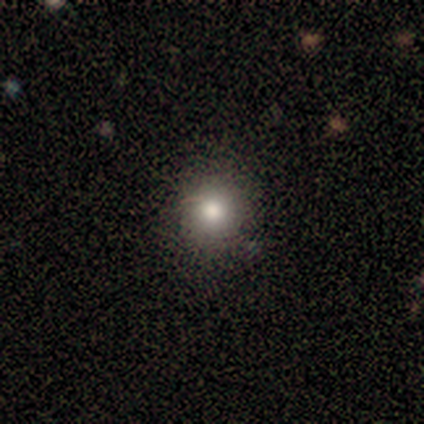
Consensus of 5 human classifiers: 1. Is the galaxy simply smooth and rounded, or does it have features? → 80% smooth, 20% featured or disk, 0% star or artifact.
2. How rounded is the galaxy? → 100% round, 0% in between, 0% cigar-shaped.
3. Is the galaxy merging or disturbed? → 100% none, 0% minor disturbance, 0% major disturbance, 0% merger.